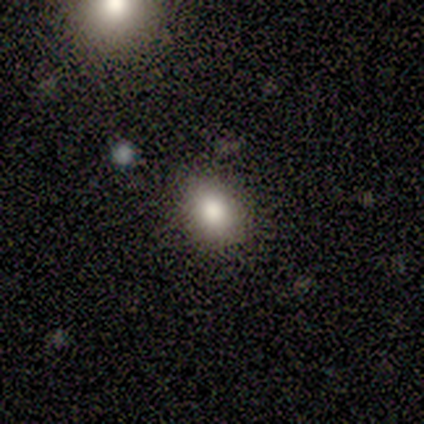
Smooth or featured: smooth — 100%
How rounded: in between — 75% (round — 25%)
Merging: none — 100%